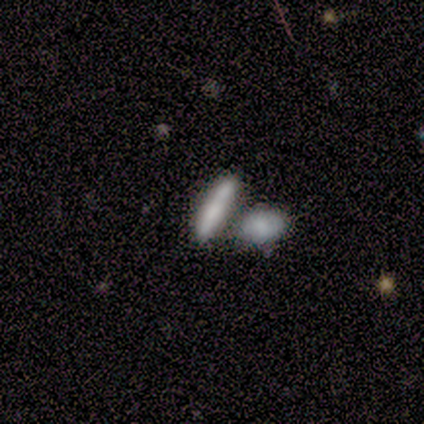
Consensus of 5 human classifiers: Morphology: type=smooth (100%); roundness=cigar-shaped (60%); merging=merger (100%).